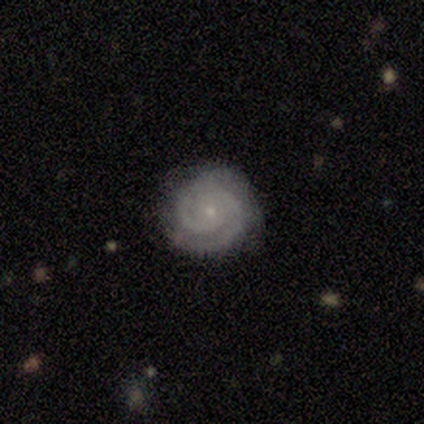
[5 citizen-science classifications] This appears to be a featured or disk galaxy (100%) with no bar (80%), 2 (80%) tight (100%) spiral arms (100%) and a small central bulge (100%). Merging: none (80%).